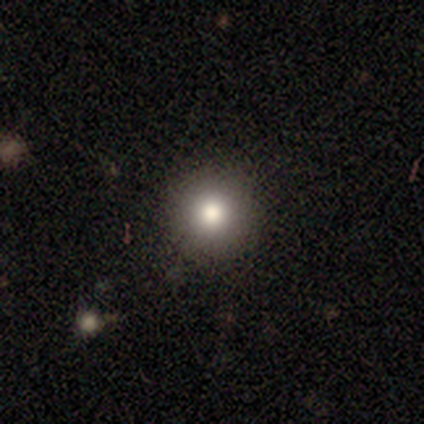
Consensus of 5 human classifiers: A smooth galaxy with no disk features (80%) that is round (100%). Merging: none (100%).